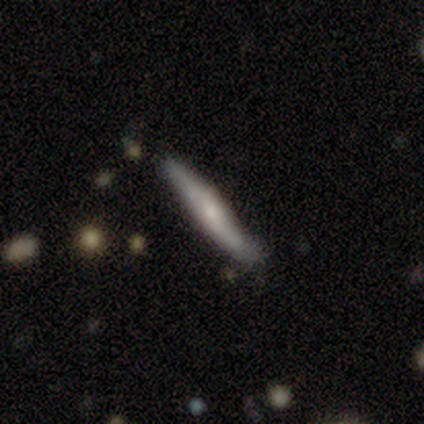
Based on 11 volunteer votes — featured or disk 64%, smooth 36%, star or artifact 0%. Down the decision tree: edge-on disk — yes (71%); edge-on bulge — none (60%); merging — minor disturbance (55%).